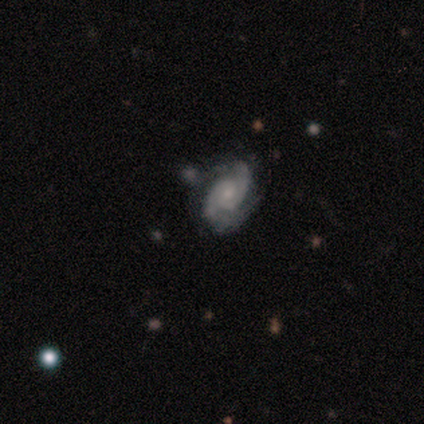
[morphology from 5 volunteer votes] This is likely a featured or disk galaxy (60%). It is clearly not viewed edge-on (100%). Bar: marginally strong (33%, tied with weak and no). Spiral arm pattern: clearly yes (100%). Spiral arm count: likely 2 (67%). Spiral winding: likely medium (67%). Central bulge: likely moderate (67%). Merging: clearly none (80%).